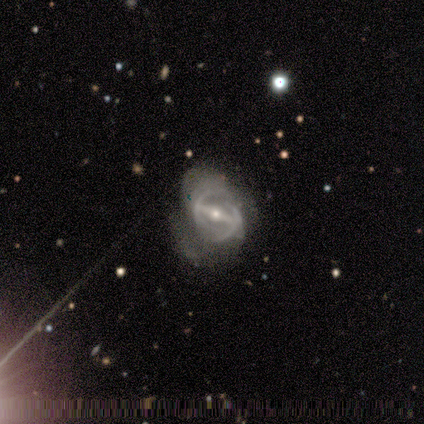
This appears to be a featured or disk galaxy (75%) with a strong bar (50%, tied with weak), 2 (100%) tight (100%) spiral arms (50%, tied with no) and a moderate central bulge (100%). Merging: none (100%).